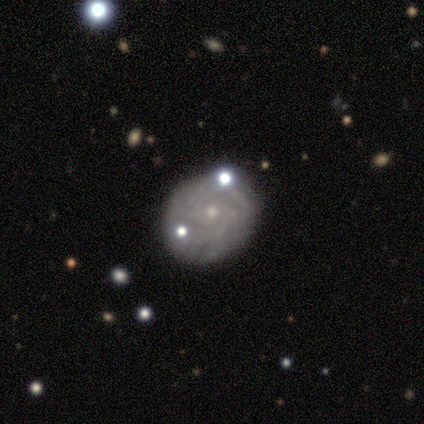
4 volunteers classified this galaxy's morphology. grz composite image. It shows a featured or disk galaxy (75%) with no bar (100%), tight (100%) spiral arms (100%) and a small central bulge (100%). Merging: none (100%).